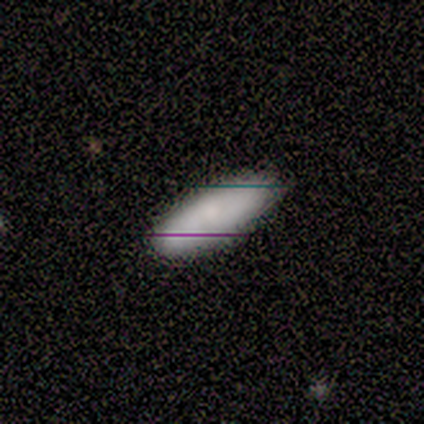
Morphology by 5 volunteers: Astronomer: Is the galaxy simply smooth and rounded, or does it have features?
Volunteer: smooth — 80%.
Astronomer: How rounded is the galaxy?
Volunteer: in between — 50%, tied with cigar-shaped at 50%.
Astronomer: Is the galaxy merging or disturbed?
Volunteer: none — 60%.